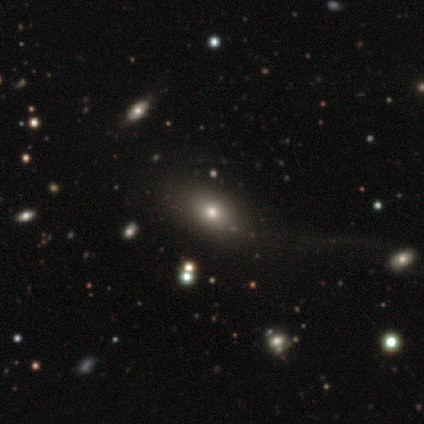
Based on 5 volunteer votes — Smooth or featured?
  - smooth: 60% *
  - featured or disk: 40%
  - star or artifact: 0%
How rounded?
  - in between: 67% *
  - round: 33%
  - cigar-shaped: 0%
Merging?
  - none: 100% *
  - minor disturbance: 0%
  - major disturbance: 0%
  - merger: 0%